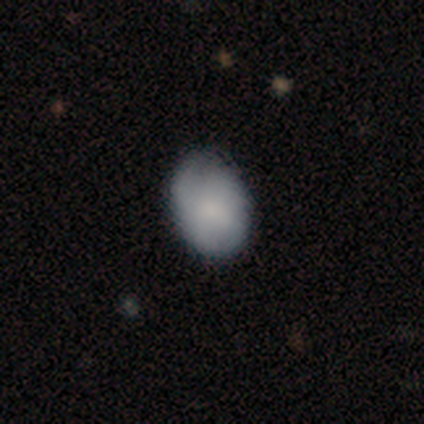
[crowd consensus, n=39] A smooth galaxy with no disk features (72%) that is in between round and cigar-shaped (68%).

Vote fractions:
- Smooth or featured? smooth: 72% / featured or disk: 26% / star or artifact: 3%
- How rounded? in between: 68% / round: 32% / cigar-shaped: 0%
- Merging? none: 37% / minor disturbance: 24% / major disturbance: 0% / merger: 0%